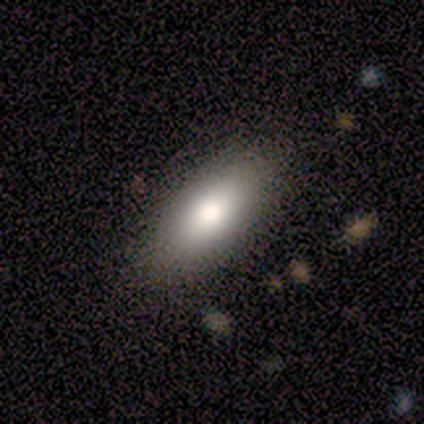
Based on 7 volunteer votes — smooth_or_featured: smooth (p=0.57) [alt: featured or disk p=0.29]
how_rounded: in between (p=1.00)
merging: none (p=1.00)